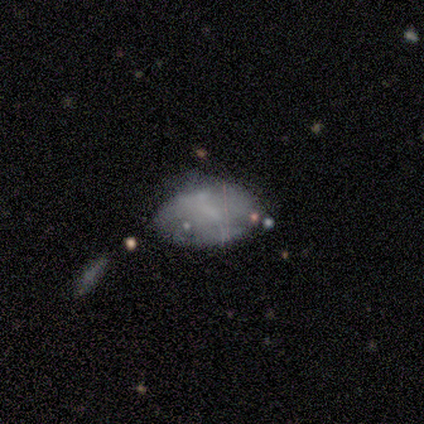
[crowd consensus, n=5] Volunteers were most divided on "merging": minor disturbance: 50%, none: 25%, merger: 25%, major disturbance: 0%. More confident: how rounded — in between (100%); smooth or featured — smooth (80%).